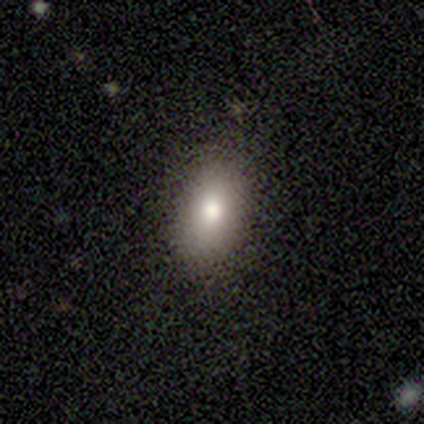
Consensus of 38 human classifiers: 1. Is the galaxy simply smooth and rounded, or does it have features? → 82% smooth, 13% star or artifact, 5% featured or disk.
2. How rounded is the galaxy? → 81% in between, 19% round, 0% cigar-shaped.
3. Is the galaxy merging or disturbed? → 91% none, 9% minor disturbance, 0% major disturbance, 0% merger.